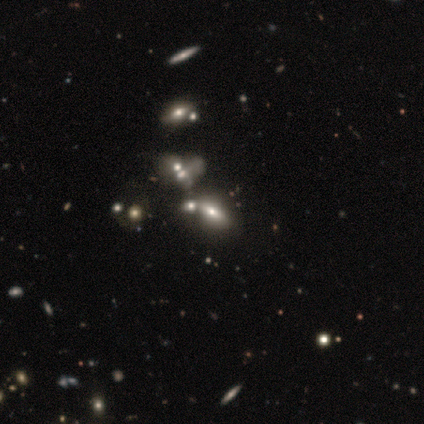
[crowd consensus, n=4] smooth-or-featured: featured or disk: 50% | smooth: 25% | star or artifact: 25%
  disk-edge-on: yes: 50% (tied) | no: 50% (tied)
    edge-on-bulge: rounded: 100% | boxy: 0% | none: 0%
  merging: merger: 67% | none: 33% | minor disturbance: 0% | major disturbance: 0%